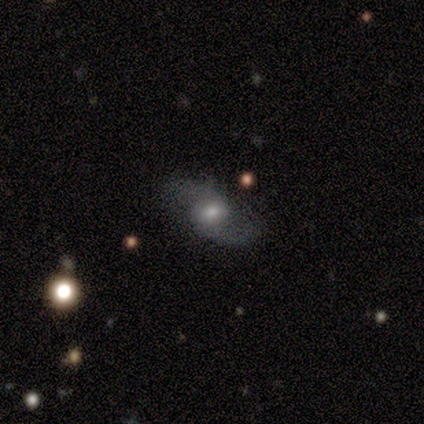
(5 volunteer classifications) This appears to be a featured or disk galaxy (80%) with no bar (75%), 2 (100%) loose (75%) spiral arms (100%) and a small central bulge (75%). Merging: none (100%).